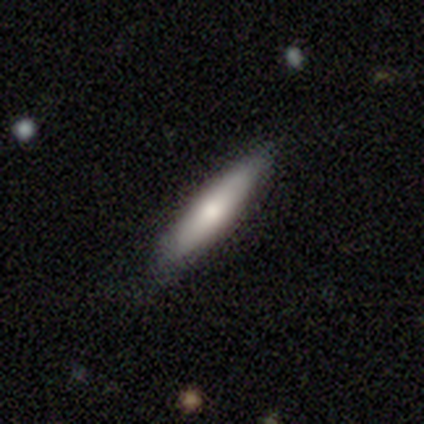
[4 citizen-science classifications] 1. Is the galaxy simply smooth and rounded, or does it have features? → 100% smooth, 0% featured or disk, 0% star or artifact.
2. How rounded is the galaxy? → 100% cigar-shaped, 0% round, 0% in between.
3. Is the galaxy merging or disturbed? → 100% none, 0% minor disturbance, 0% major disturbance, 0% merger.